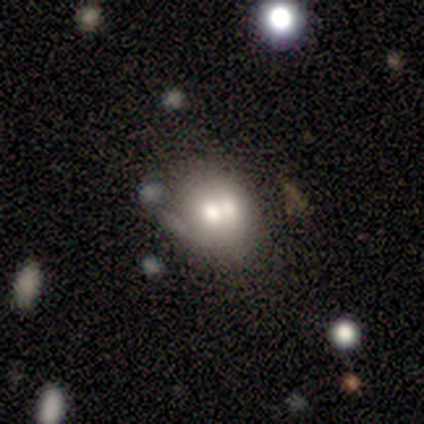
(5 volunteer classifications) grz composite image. It shows a smooth galaxy with no disk features (40%, tied with featured or disk) that is round (100%). Merging: none (50%, tied with merger).